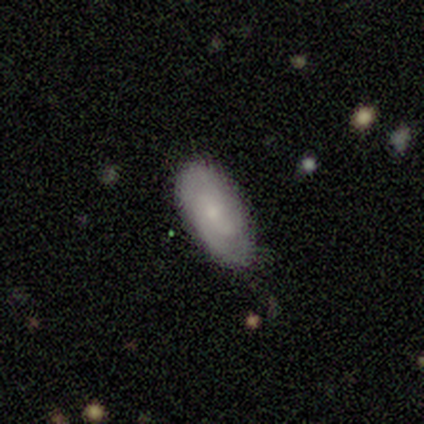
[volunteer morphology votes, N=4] smooth_or_featured: smooth (p=0.50) [tied with: featured or disk p=0.50]
how_rounded: round (p=0.50) [tied with: in between p=0.50]
merging: none (p=0.75) [alt: minor disturbance p=0.25]